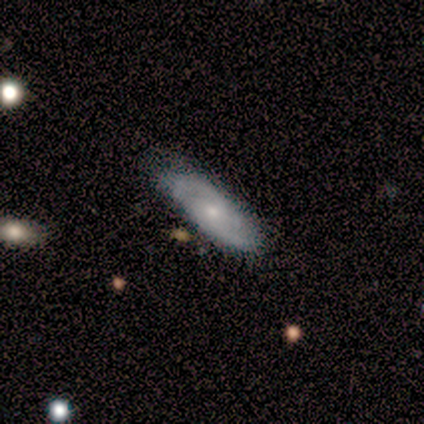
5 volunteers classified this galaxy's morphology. Smooth or featured? smooth (60%)
How rounded? in between (67%)
Merging? none (80%)